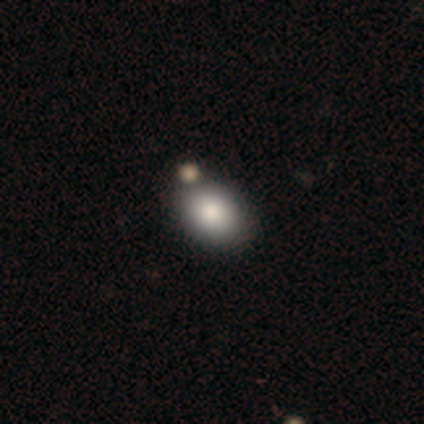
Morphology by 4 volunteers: smooth 75%, featured or disk 25%, star or artifact 0%. Down the decision tree: how rounded — in between (100%); merging — none (100%).